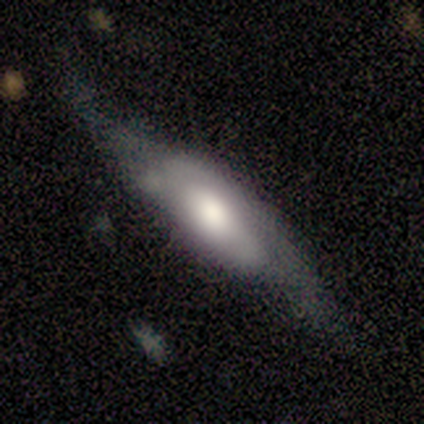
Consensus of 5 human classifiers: Volunteers were most divided on "smooth or featured": smooth: 60%, featured or disk: 40%, star or artifact: 0%. More confident: how rounded — in between (100%); merging — none (80%).